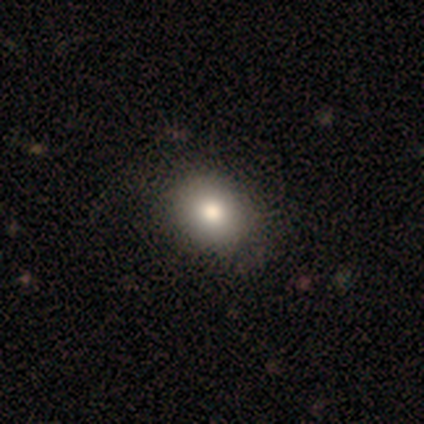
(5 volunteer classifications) Q: Smooth or featured?
A: smooth (80%); runner-up: star or artifact (20%)
Q: How rounded?
A: in between (75%); runner-up: round (25%)
Q: Merging?
A: none (75%); runner-up: minor disturbance (25%)